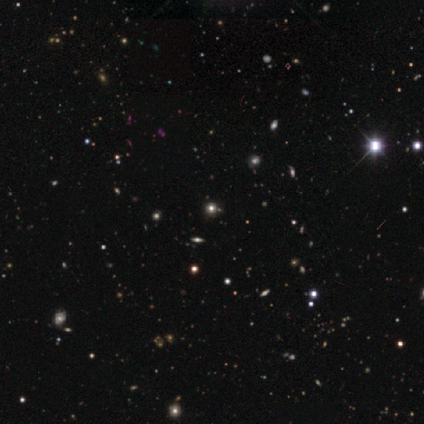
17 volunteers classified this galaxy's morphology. Volunteers were most divided on "smooth or featured": star or artifact: 65%, smooth: 29%, featured or disk: 6%.